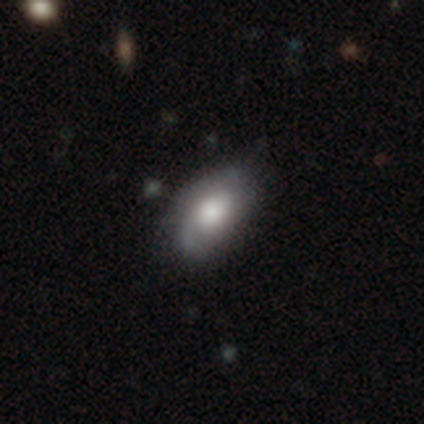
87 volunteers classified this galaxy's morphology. Smooth or featured?
  - smooth: 55% *
  - featured or disk: 38%
  - star or artifact: 7%
How rounded?
  - in between: 90% *
  - cigar-shaped: 6%
  - round: 4%
Merging?
  - none: 70% *
  - minor disturbance: 28%
  - major disturbance: 1%
  - merger: 0%